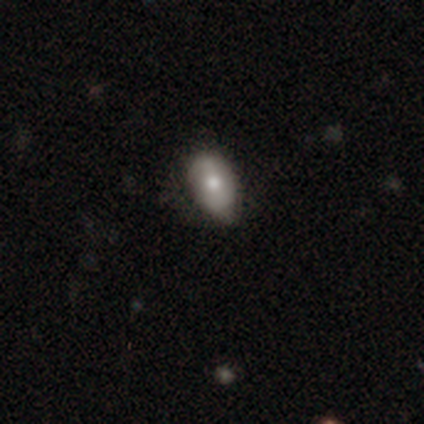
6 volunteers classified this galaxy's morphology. type=featured or disk (50%); edge-on=no (100%); bar=no (67%); spiral arms=no (100%); bulge=moderate (100%); merging=none (80%).